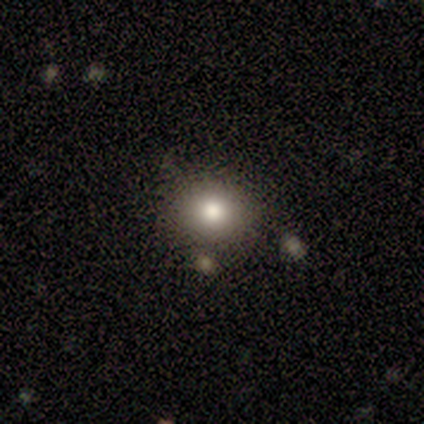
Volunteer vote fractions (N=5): This is likely a smooth galaxy (60%). How rounded: likely in between (67%). Merging: clearly none (100%).